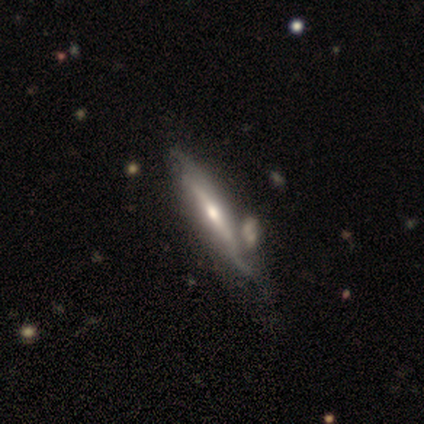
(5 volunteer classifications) Volunteers were most divided on "smooth or featured": featured or disk: 60%, smooth: 40%, star or artifact: 0%. More confident: bar — no (100%); spiral arms — no (100%); bulge size — moderate (100%); edge-on disk — no (67%); merging — minor disturbance (60%).